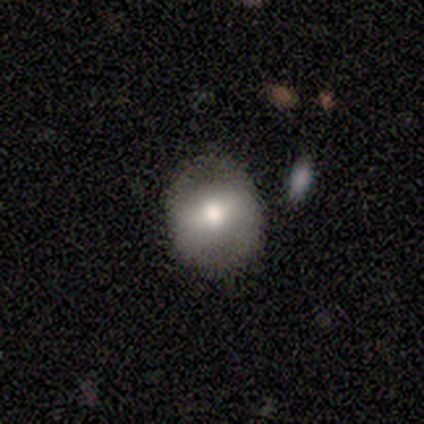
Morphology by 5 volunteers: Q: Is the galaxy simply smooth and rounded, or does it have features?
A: smooth — 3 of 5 (60%).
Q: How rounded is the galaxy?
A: round — 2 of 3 (67%).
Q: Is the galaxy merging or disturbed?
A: none — 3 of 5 (60%).